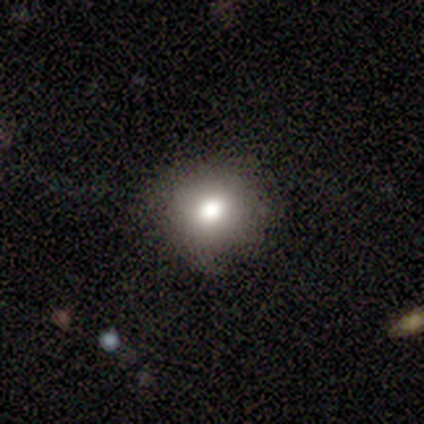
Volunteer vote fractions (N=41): Smooth or featured? smooth (88%)
How rounded? round (92%)
Merging? none (83%)